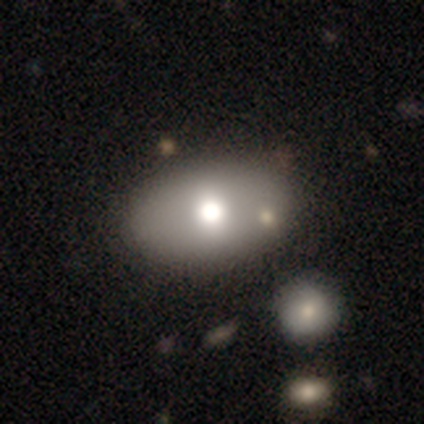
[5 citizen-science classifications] Q: Smooth or featured?
A: smooth (60%); runner-up: featured or disk (20%)
Q: How rounded?
A: in between (67%); runner-up: round (33%)
Q: Merging?
A: none (100%)